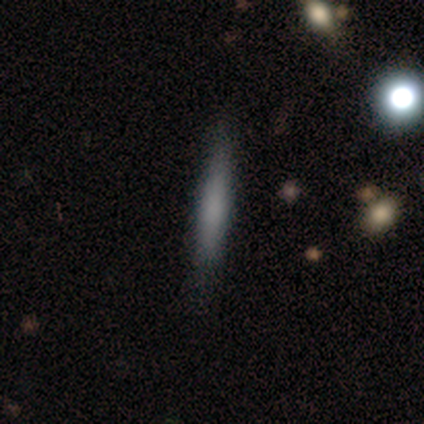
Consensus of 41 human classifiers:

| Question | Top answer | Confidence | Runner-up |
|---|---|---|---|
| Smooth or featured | smooth | 78% | featured or disk (17%) |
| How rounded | cigar-shaped | 97% | in between (3%) |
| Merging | none | 82% | minor disturbance (10%) |